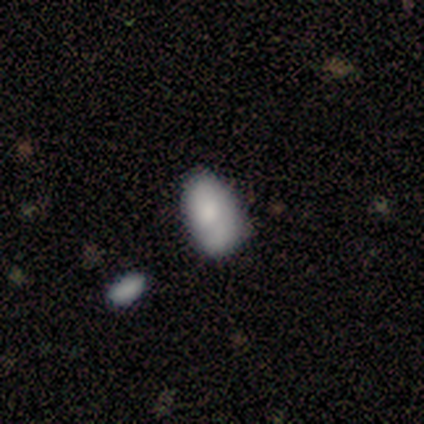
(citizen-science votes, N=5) smooth_or_featured: smooth (p=0.60) [alt: featured or disk p=0.40]
how_rounded: in between (p=1.00)
merging: minor disturbance (p=0.40) [tied with: major disturbance p=0.40]